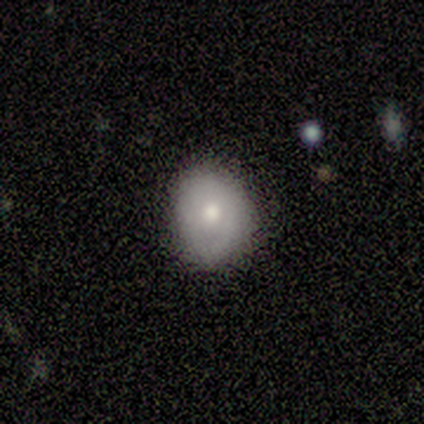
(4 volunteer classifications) Smooth or featured? smooth (75%)
How rounded? round (100%)
Merging? none (75%)